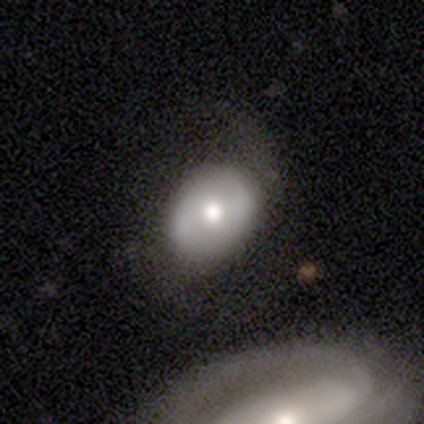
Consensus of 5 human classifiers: Smooth or featured?
  - smooth: 60% *
  - featured or disk: 40%
  - star or artifact: 0%
How rounded?
  - in between: 67% *
  - round: 33%
  - cigar-shaped: 0%
Merging?
  - major disturbance: 60% *
  - minor disturbance: 40%
  - none: 0%
  - merger: 0%